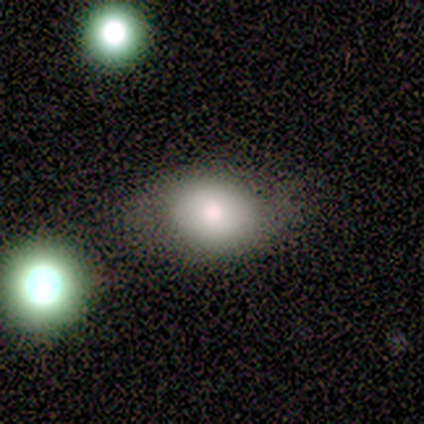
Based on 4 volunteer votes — A smooth galaxy with no disk features (50%) that is in between round and cigar-shaped (100%). Merging: none (100%).